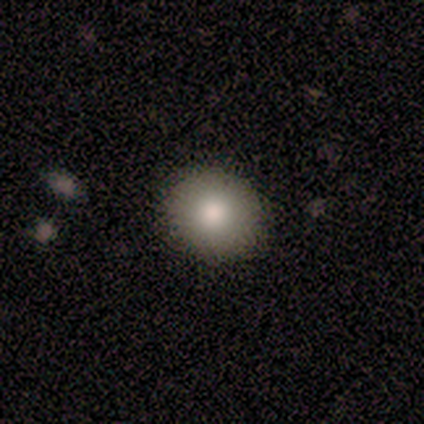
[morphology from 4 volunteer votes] type=smooth (100%); roundness=round (100%); merging=none (100%).